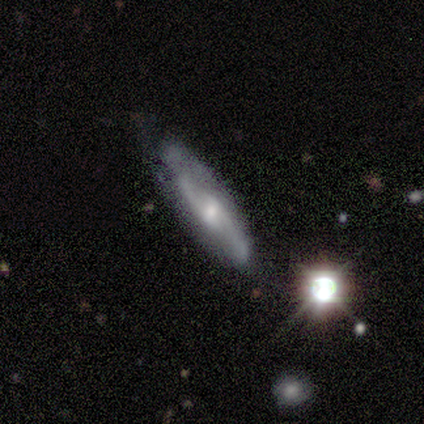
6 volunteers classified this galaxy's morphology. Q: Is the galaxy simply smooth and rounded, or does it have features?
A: featured or disk — 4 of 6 (67%).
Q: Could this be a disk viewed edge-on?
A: no — 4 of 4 (100%).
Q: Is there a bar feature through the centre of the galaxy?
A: weak — 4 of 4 (100%).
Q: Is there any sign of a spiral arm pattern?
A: yes — 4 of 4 (100%).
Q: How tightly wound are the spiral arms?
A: medium — 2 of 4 (50%).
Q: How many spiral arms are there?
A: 2 — 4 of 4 (100%).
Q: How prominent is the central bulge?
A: moderate — 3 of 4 (75%).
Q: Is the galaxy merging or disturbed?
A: none — 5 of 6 (83%).